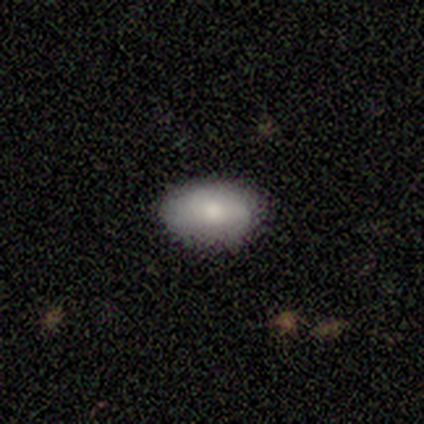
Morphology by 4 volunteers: smooth 100%, featured or disk 0%, star or artifact 0%. Down the decision tree: how rounded — in between (100%); merging — none (75%).